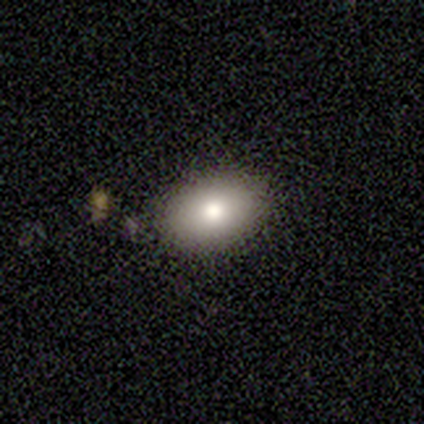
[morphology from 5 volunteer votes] smooth_or_featured: smooth (p=0.80) [alt: star or artifact p=0.20]
how_rounded: in between (p=1.00)
merging: none (p=1.00)